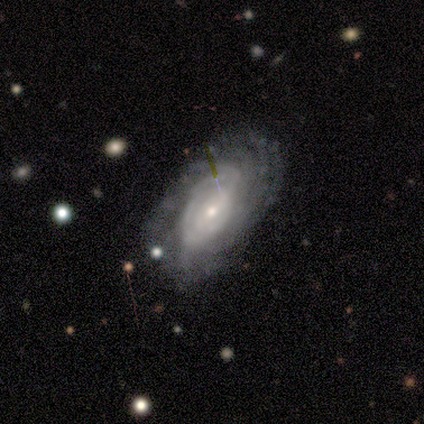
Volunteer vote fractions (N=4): Q: Smooth or featured?
A: featured or disk (75%); runner-up: smooth (25%)
Q: Edge-on disk?
A: no (100%)
Q: Bar?
A: weak (67%); runner-up: strong (33%)
Q: Spiral arms?
A: yes (100%)
Q: Spiral winding?
A: tight (100%)
Q: Spiral arm count?
A: can't tell (67%); runner-up: 2 (33%)
Q: Bulge size?
A: small (67%); runner-up: moderate (33%)
Q: Merging?
A: none (75%); runner-up: minor disturbance (25%)